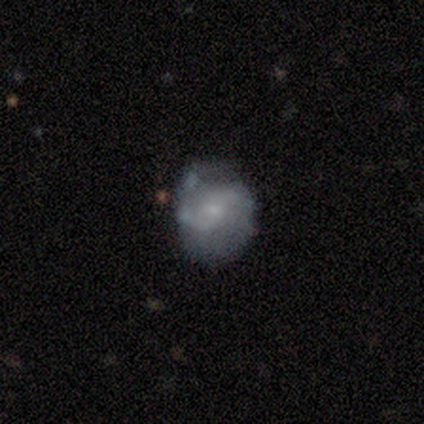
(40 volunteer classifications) Morphology: type=featured or disk (70%); edge-on=no (100%); bar=no (64%); spiral arms=yes (75%); winding=loose (43%); arm count=2 (71%); bulge=small (75%); merging=none (41%).